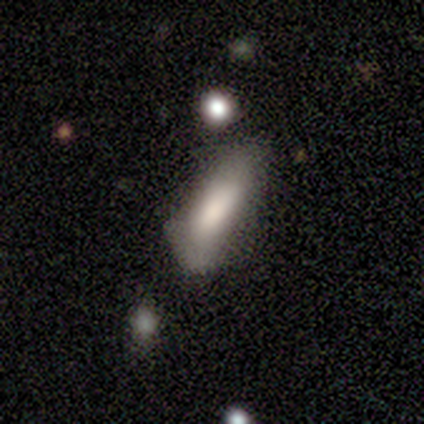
Overall: smooth (70%). How rounded: cigar-shaped (71%). Merging: none (44%, tied with minor disturbance).